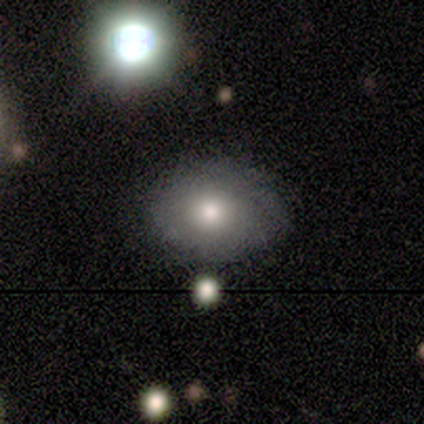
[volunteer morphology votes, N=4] Overall: smooth (50%; featured or disk 25%). How rounded: round (50%, tied with in between). Merging: none (100%).